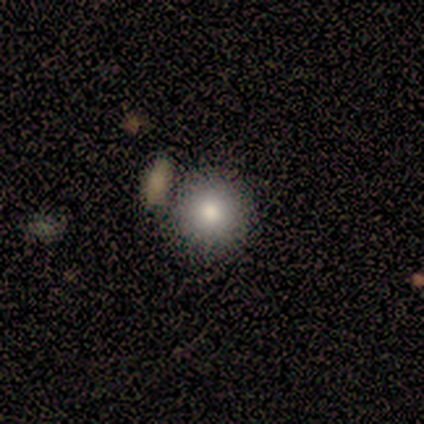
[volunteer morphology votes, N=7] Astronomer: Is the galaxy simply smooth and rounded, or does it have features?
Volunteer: smooth — 100%.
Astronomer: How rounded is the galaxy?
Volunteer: round — 86%.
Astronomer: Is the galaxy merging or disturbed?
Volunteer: none — 71%.